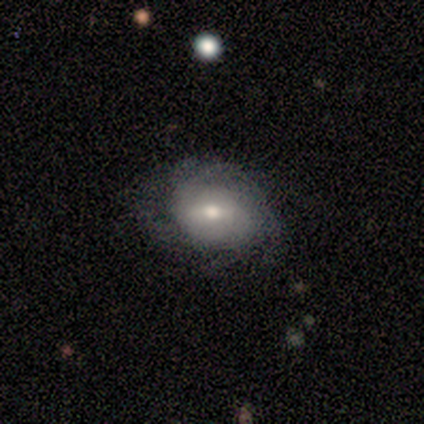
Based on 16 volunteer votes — A featured or disk galaxy (69%) with a weak bar (73%), medium (50%) spiral arms (91%) and a moderate central bulge (55%).

Vote fractions:
- Smooth or featured? featured or disk: 69% / smooth: 31% / star or artifact: 0%
- Edge-on disk? no: 100% / yes: 0%
- Bar? weak: 73% / no: 18% / strong: 9%
- Spiral arms? yes: 91% / no: 9%
- Spiral winding? medium: 50% / tight: 30% / loose: 20%
- Spiral arm count? can't tell: 30% / 2: 20% / 3: 20% / 4: 20% / more than 4: 10% / 1: 0%
- Bulge size? moderate: 55% / small: 36% / large: 9% / dominant: 0% / none: 0%
- Merging? none: 62% / minor disturbance: 25% / major disturbance: 12% / merger: 0%